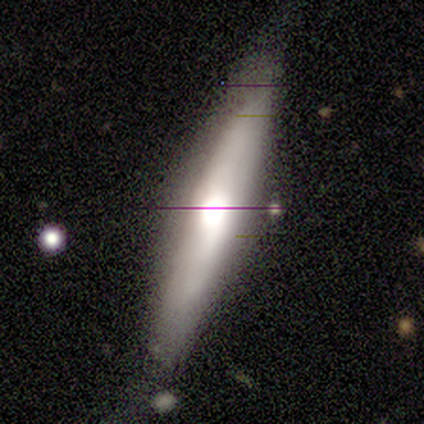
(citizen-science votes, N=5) Smooth or featured: smooth — 60% (featured or disk — 20%)
How rounded: cigar-shaped — 100%
Merging: none — 75% (minor disturbance — 25%)